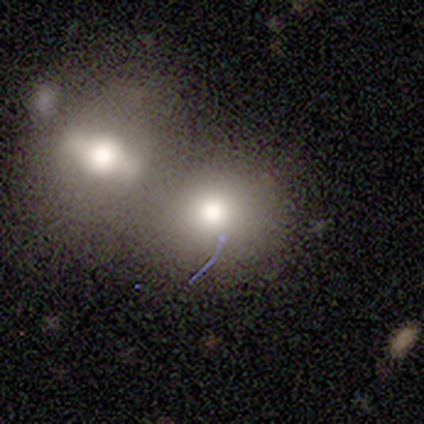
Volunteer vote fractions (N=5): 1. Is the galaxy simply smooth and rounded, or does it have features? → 100% smooth, 0% featured or disk, 0% star or artifact.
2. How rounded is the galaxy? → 80% round, 20% in between, 0% cigar-shaped.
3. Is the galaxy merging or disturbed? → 80% merger, 20% minor disturbance, 0% none, 0% major disturbance.